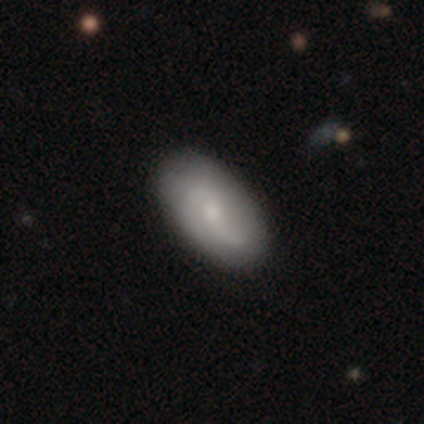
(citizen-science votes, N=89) Smooth or featured? smooth (46%, tied with featured or disk)
How rounded? in between (90%)
Merging? none (87%)